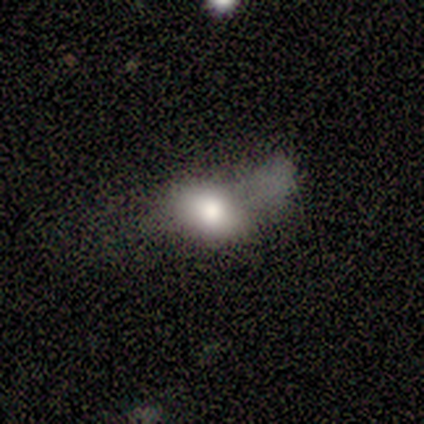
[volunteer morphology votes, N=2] Smooth or featured? 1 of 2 (50%, tied with star or artifact) said smooth. How rounded? 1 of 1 (100%) said in between. Merging? 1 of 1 (100%) said minor disturbance.